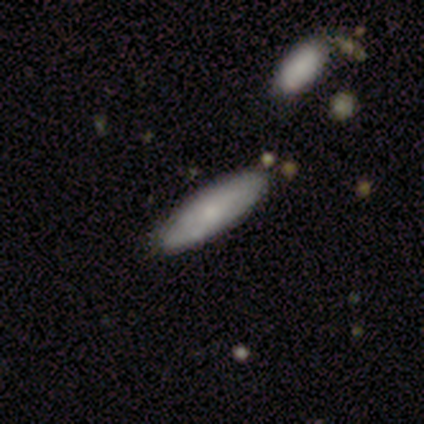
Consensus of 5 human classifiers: Smooth or featured?
  - smooth: 100% *
  - featured or disk: 0%
  - star or artifact: 0%
How rounded?
  - cigar-shaped: 80% *
  - in between: 20%
  - round: 0%
Merging?
  - none: 100% *
  - minor disturbance: 0%
  - major disturbance: 0%
  - merger: 0%